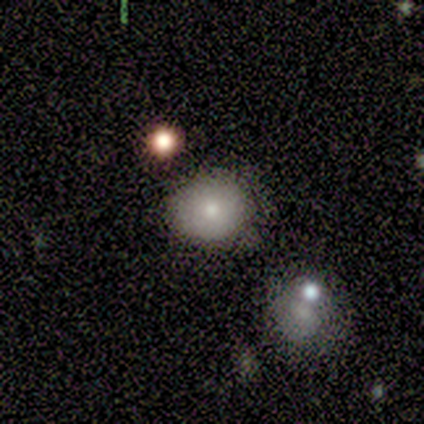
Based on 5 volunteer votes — Q: Smooth or featured?
A: smooth (60%); runner-up: featured or disk (40%)
Q: How rounded?
A: round (100%)
Q: Merging?
A: none (80%); runner-up: minor disturbance (20%)